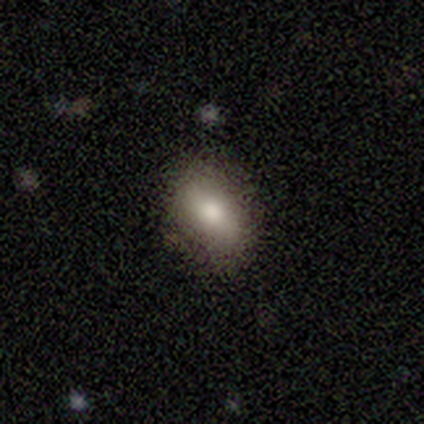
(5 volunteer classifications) This is clearly a smooth galaxy (100%). How rounded: likely in between (60%). Merging: clearly none (80%).